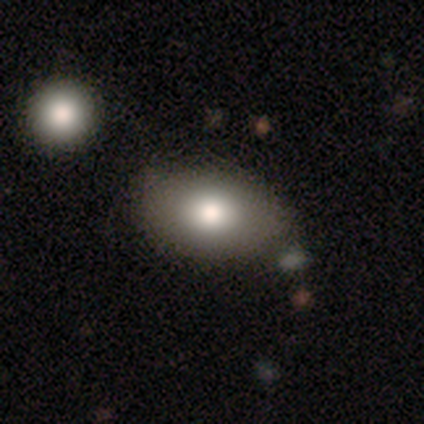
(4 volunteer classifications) Volunteers were most divided on "smooth or featured": smooth: 50%, featured or disk: 25%, star or artifact: 25%. More confident: how rounded — in between (100%); merging — none (100%).